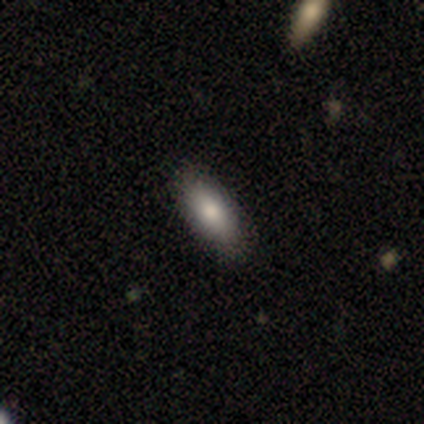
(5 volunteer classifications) Volunteers were most divided on "how rounded": in between: 80%, cigar-shaped: 20%, round: 0%. More confident: smooth or featured — smooth (100%); merging — none (80%).